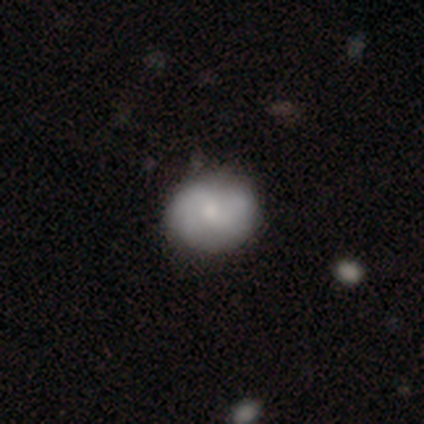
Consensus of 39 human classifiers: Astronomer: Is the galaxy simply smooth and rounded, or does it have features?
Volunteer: smooth — 56% (runner-up: featured or disk, 44%).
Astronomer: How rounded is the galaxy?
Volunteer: round — 68%.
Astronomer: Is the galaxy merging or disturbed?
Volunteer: none — 67%.